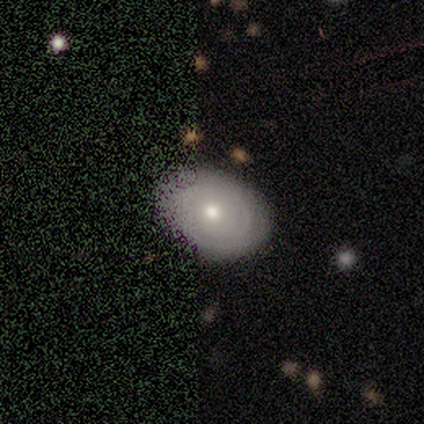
smooth_or_featured: featured or disk (p=0.80) [alt: star or artifact p=0.20]
disk_edge_on: yes (p=0.50) [tied with: no p=0.50]
edge_on_bulge: rounded (p=1.00)
merging: minor disturbance (p=0.50) [alt: none p=0.25]